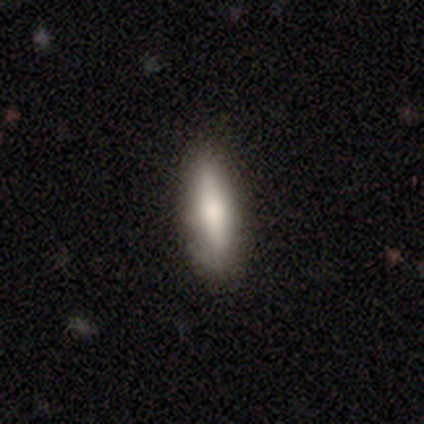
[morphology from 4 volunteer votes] A smooth galaxy with no disk features (75%) that is cigar-shaped (67%). Merging: none (100%).